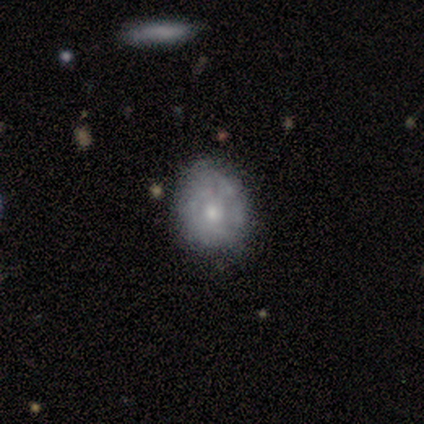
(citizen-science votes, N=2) Volunteers were most divided on "merging" (2-way tie): none: 50%, minor disturbance: 50%, major disturbance: 0%, merger: 0%. More confident: smooth or featured — featured or disk (100%); edge-on disk — no (100%); bar — no (100%); spiral arms — no (100%); bulge size — small (100%).